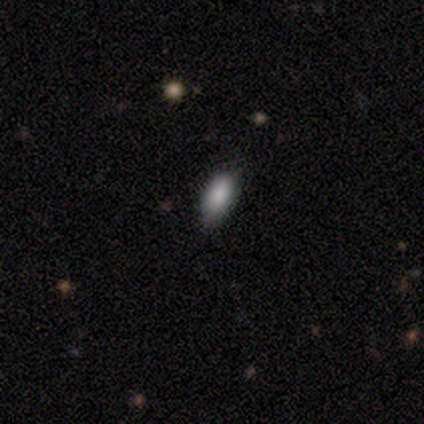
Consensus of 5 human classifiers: This appears to be a smooth galaxy with no disk features (80%) that is in between round and cigar-shaped (75%). Merging: none (100%).